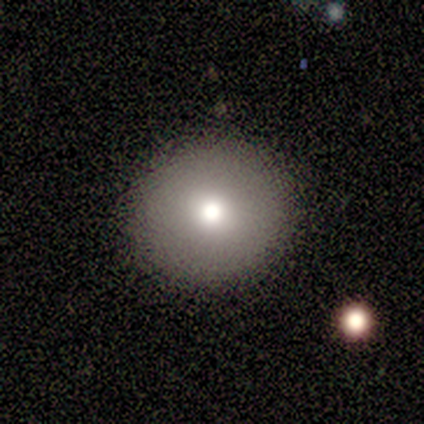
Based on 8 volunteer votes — smooth 62%, featured or disk 25%, star or artifact 12%. Down the decision tree: how rounded — round (100%); merging — none (86%).